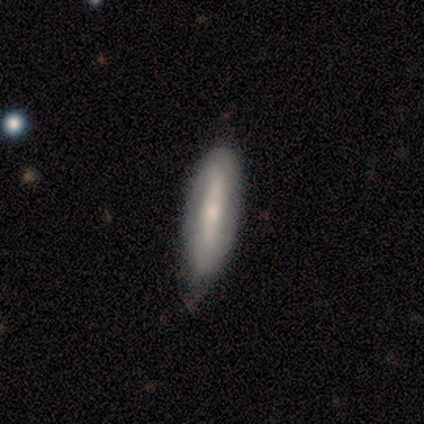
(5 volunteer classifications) Overall: featured or disk (100%). Edge-on disk: no (80%). Bar: weak (75%). Spiral arms: yes (75%). Spiral arm count: can't tell (67%; 2 33%). Spiral winding: tight (67%; loose 33%). Bulge size: moderate (50%, tied with small). Merging: none (80%).